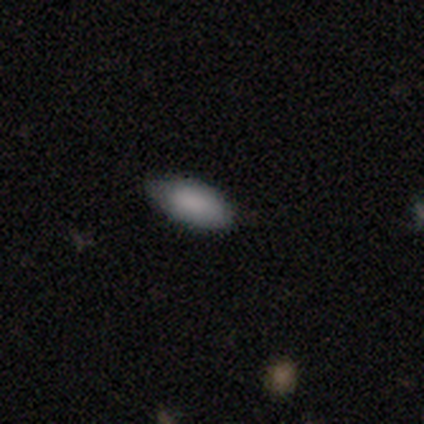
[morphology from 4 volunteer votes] Smooth or featured? smooth (100%)
How rounded? in between (50%)
Merging? none (100%)